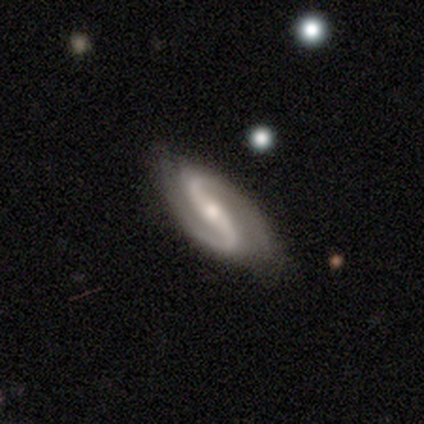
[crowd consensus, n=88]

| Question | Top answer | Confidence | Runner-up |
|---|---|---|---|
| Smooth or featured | featured or disk | 97% | star or artifact (2%) |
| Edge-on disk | no | 95% | yes (5%) |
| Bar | strong | 62% | weak (28%) |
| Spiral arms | yes | 95% | no (5%) |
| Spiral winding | medium | 48% | loose (38%) |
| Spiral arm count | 2 | 99% | can't tell (1%) |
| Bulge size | moderate | 57% | small (33%) |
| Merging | none | 85% | minor disturbance (12%) |